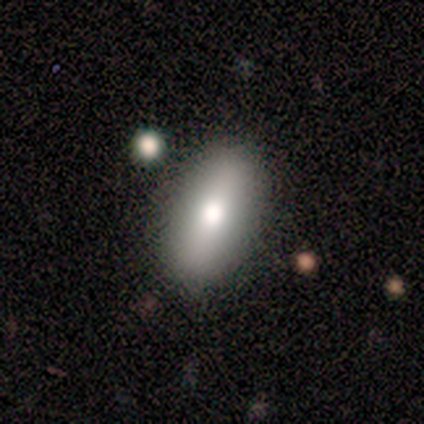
Volunteers were most divided on "merging" (2-way tie): none: 40%, minor disturbance: 40%, major disturbance: 20%, merger: 0%. More confident: smooth or featured — smooth (80%); how rounded — in between (75%).